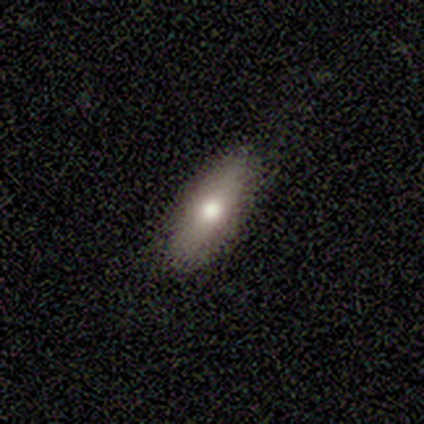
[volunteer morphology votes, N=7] smooth-or-featured: smooth: 71% | featured or disk: 14% | star or artifact: 14%
  how-rounded: cigar-shaped: 60% | in between: 40% | round: 0%
  merging: none: 100% | minor disturbance: 0% | major disturbance: 0% | merger: 0%